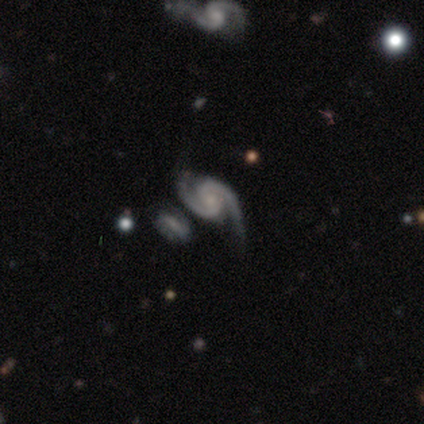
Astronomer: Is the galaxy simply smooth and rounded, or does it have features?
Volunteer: featured or disk — 100%.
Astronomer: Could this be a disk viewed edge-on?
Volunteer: no — 100%.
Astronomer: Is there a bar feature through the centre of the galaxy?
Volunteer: weak — 60%.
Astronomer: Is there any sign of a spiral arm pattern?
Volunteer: yes — 100%.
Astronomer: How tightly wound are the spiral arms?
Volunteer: medium — 100%.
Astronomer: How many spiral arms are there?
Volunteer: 2 — 100%.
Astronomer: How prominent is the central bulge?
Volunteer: none — 60%.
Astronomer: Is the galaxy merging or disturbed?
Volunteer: none — 60%.